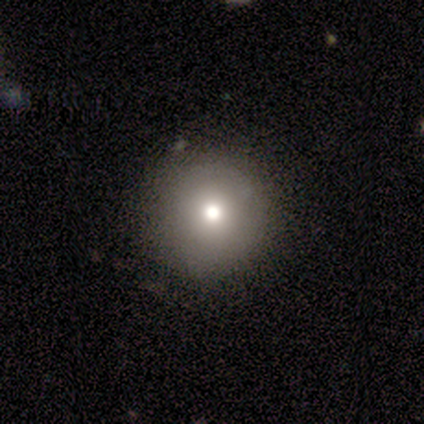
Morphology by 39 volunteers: smooth-or-featured: smooth: 56% | star or artifact: 28% | featured or disk: 15%
  how-rounded: round: 100% | in between: 0% | cigar-shaped: 0%
  merging: none: 89% | minor disturbance: 4% | major disturbance: 4% | merger: 4%